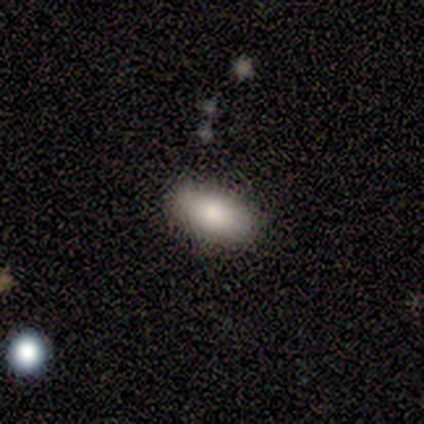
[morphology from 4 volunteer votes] A smooth galaxy with no disk features (100%) that is in between round and cigar-shaped (75%).

Vote fractions:
- Smooth or featured? smooth: 100% / featured or disk: 0% / star or artifact: 0%
- How rounded? in between: 75% / round: 25% / cigar-shaped: 0%
- Merging? none: 100% / minor disturbance: 0% / major disturbance: 0% / merger: 0%